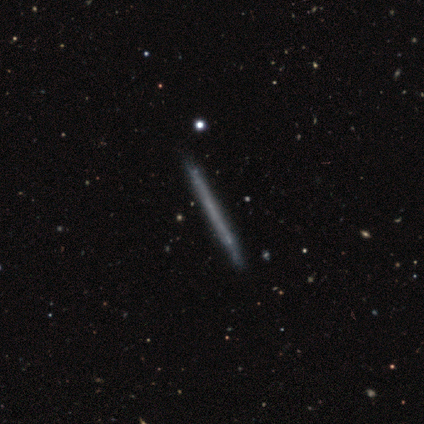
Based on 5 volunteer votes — Overall: featured or disk (80%). Edge-on disk: yes (100%). Edge-on bulge: none (100%). Merging: none (80%).